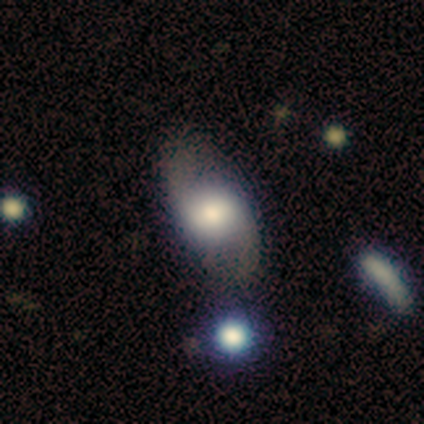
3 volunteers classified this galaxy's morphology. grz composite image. It shows a featured or disk galaxy (67%) with a weak bar (50%, tied with no), 2 (100%) loose (100%) spiral arms (50%, tied with no) and a dominant central bulge (50%, tied with large). Merging: minor disturbance (67%).